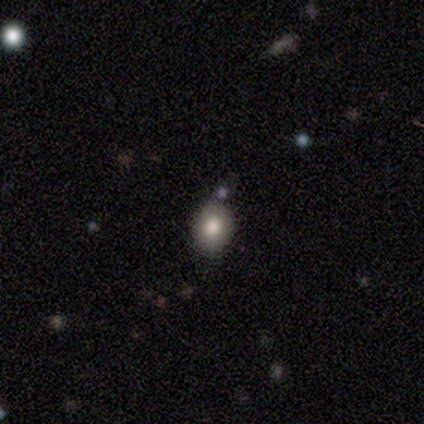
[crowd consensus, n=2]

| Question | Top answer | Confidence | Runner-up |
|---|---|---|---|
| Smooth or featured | smooth | 100% | — |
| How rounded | round | 50% | tied: in between (50%) |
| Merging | none | 100% | — |